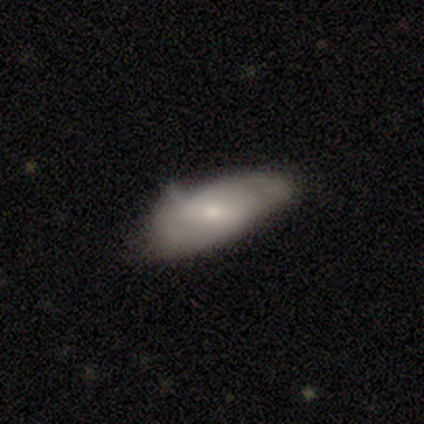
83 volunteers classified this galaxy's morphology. type=smooth (60%); roundness=in between (88%); merging=minor disturbance (48%).